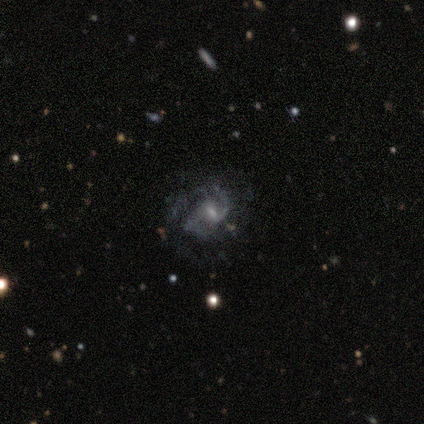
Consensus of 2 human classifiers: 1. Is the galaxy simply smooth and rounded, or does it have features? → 100% featured or disk, 0% smooth, 0% star or artifact.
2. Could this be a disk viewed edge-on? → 100% no, 0% yes.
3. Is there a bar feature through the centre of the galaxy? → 100% weak, 0% strong, 0% no.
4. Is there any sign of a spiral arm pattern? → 100% yes, 0% no.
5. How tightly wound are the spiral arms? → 50% medium (tied), 50% loose (tied), 0% tight.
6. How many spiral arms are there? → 100% 2, 0% 1, 0% 3, 0% 4, 0% more than 4, 0% can't tell.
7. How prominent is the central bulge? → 50% moderate (tied), 50% small (tied), 0% dominant, 0% large, 0% none.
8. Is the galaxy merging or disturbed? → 50% none (tied), 50% major disturbance (tied), 0% minor disturbance, 0% merger.